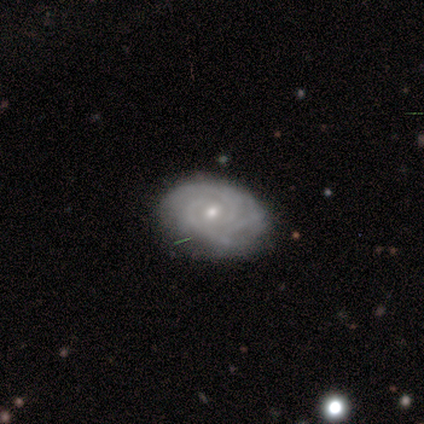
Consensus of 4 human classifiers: Smooth or featured? 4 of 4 (100%) said featured or disk. Edge-on disk? 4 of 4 (100%) said no. Bar? 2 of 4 (50%) said no. Spiral arms? 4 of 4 (100%) said yes. Spiral winding? 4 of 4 (100%) said tight. Spiral arm count? 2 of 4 (50%) said 3. Bulge size? 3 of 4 (75%) said small. Merging? 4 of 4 (100%) said none.